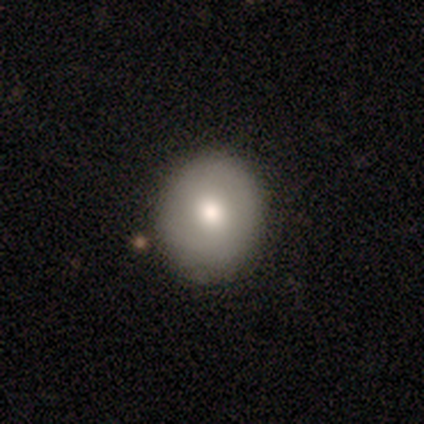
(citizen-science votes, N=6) smooth 67%, featured or disk 33%, star or artifact 0%. Down the decision tree: how rounded — round (100%); merging — none (100%).